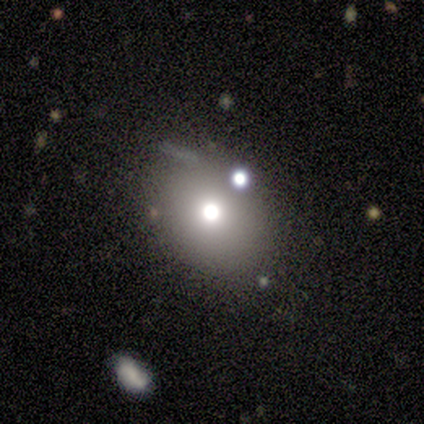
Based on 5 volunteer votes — A smooth galaxy with no disk features (60%) that is round (100%).

Vote fractions:
- Smooth or featured? smooth: 60% / featured or disk: 20% / star or artifact: 20%
- How rounded? round: 100% / in between: 0% / cigar-shaped: 0%
- Merging? none: 100% / minor disturbance: 0% / major disturbance: 0% / merger: 0%